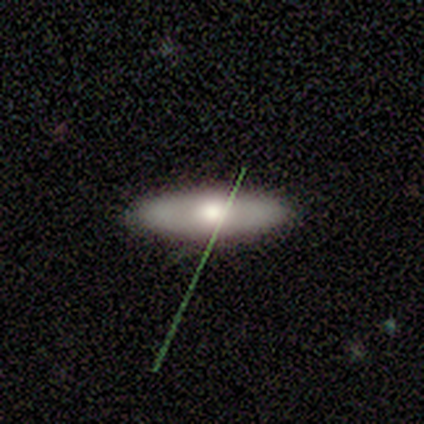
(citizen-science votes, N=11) Smooth or featured? smooth (55%)
How rounded? in between (83%)
Merging? none (80%)